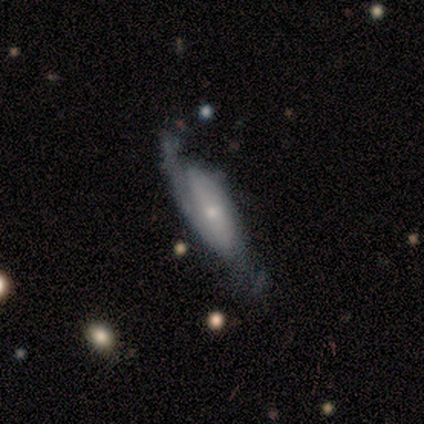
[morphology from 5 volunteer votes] A smooth galaxy with no disk features (40%, tied with star or artifact) that is in between round and cigar-shaped (100%). Merging: none (33%, tied with minor disturbance and major disturbance).